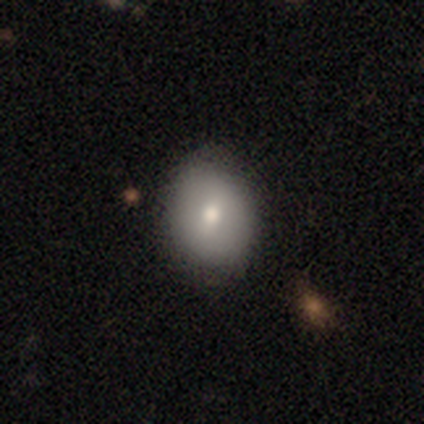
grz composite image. It shows a smooth galaxy with no disk features (72%) that is round (66%). Merging: none (87%).